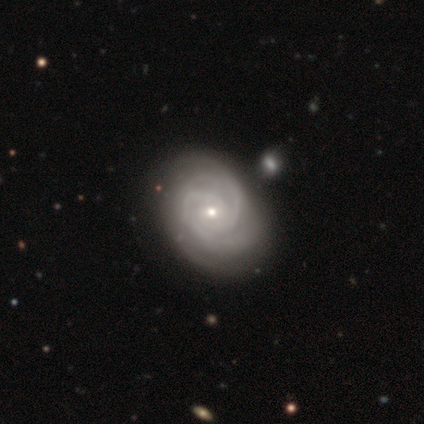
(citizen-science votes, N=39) Volunteers were most divided on "spiral arm count": 2: 51%, 3: 37%, 4: 9%, can't tell: 3%, 1: 0%, more than 4: 0%. More confident: smooth or featured — featured or disk (97%); edge-on disk — no (97%); spiral arms — yes (95%); spiral winding — tight (71%); bulge size — small (62%); merging — none (61%); bar — no (59%).